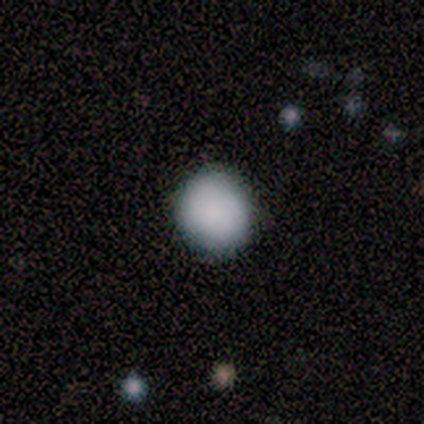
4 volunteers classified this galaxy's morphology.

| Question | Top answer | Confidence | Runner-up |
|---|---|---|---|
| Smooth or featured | smooth | 100% | — |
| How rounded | round | 50% | tied: in between (50%) |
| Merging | none | 75% | minor disturbance (25%) |